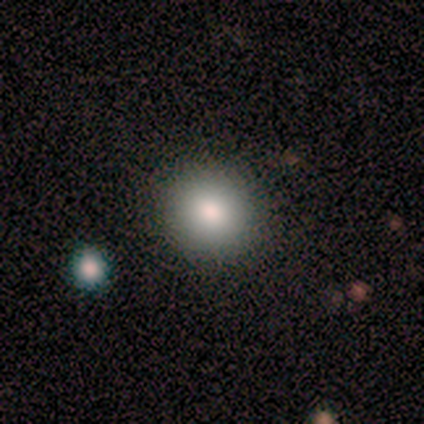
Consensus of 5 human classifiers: Volunteers were most divided on "merging": none: 80%, minor disturbance: 20%, major disturbance: 0%, merger: 0%. More confident: smooth or featured — smooth (100%); how rounded — round (100%).